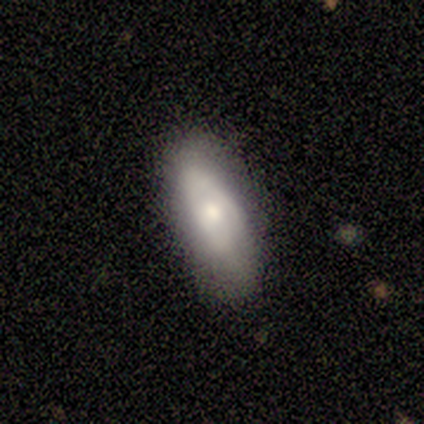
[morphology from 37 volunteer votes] Q: Smooth or featured?
A: smooth (51%); runner-up: featured or disk (41%)
Q: How rounded?
A: in between (79%); runner-up: cigar-shaped (16%)
Q: Merging?
A: none (59%); runner-up: minor disturbance (41%)